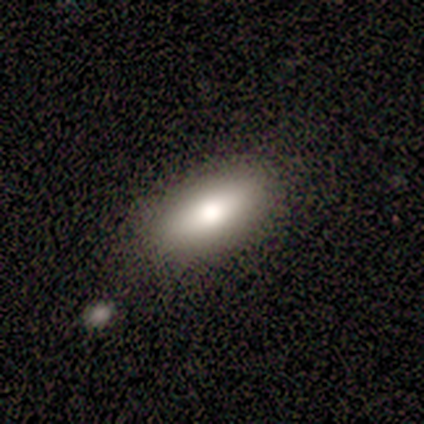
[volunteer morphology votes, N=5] Q: Smooth or featured?
A: smooth (80%); runner-up: star or artifact (20%)
Q: How rounded?
A: in between (75%); runner-up: cigar-shaped (25%)
Q: Merging?
A: none (75%); runner-up: minor disturbance (25%)